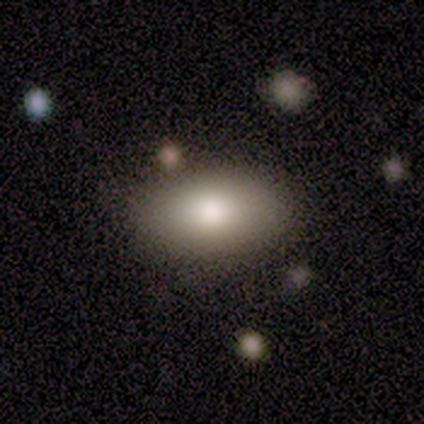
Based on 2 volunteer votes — This appears to be a smooth galaxy with no disk features (50%, tied with featured or disk) that is in between round and cigar-shaped (100%). Merging: none (100%).